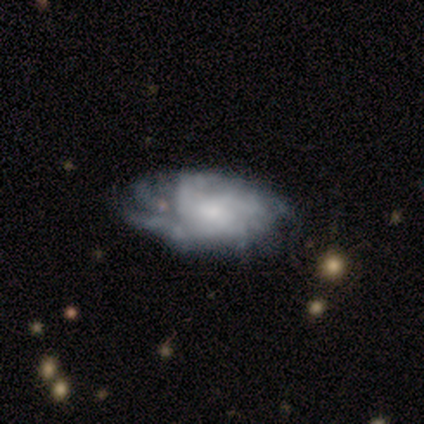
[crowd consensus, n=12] A featured or disk galaxy (83%) with no bar (89%), tight (50%) spiral arms (89%) and a small central bulge (56%).

Vote fractions:
- Smooth or featured? featured or disk: 83% / smooth: 17% / star or artifact: 0%
- Edge-on disk? no: 90% / yes: 10%
- Bar? no: 89% / weak: 11% / strong: 0%
- Spiral arms? yes: 89% / no: 11%
- Spiral winding? tight: 50% / medium: 38% / loose: 12%
- Spiral arm count? can't tell: 50% / more than 4: 25% / 2: 12% / 4: 12% / 1: 0% / 3: 0%
- Bulge size? small: 56% / moderate: 33% / none: 11% / dominant: 0% / large: 0%
- Merging? none: 83% / minor disturbance: 8% / major disturbance: 8% / merger: 0%